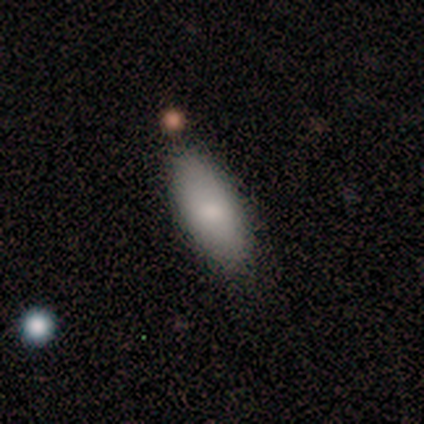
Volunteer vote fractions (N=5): Overall: smooth (100%). How rounded: in between (60%; cigar-shaped 40%). Merging: none (80%).